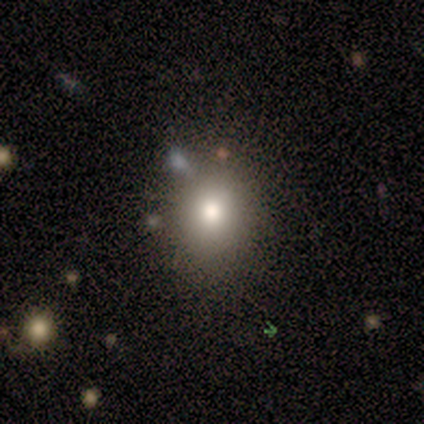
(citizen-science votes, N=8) Morphology: type=smooth (75%); roundness=round (67%); merging=none (71%).